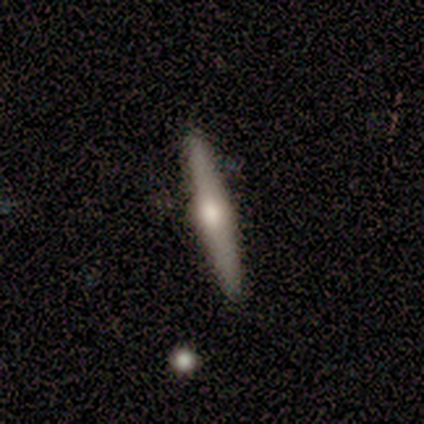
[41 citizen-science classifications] Smooth or featured? 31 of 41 (76%) said featured or disk. Edge-on disk? 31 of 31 (100%) said yes. Edge-on bulge? 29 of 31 (94%) said rounded. Merging? 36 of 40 (90%) said none.